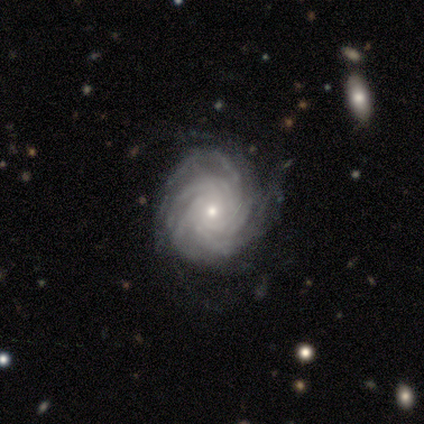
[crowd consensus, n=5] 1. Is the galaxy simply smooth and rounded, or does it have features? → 80% featured or disk, 20% smooth, 0% star or artifact.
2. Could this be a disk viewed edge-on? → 100% no, 0% yes.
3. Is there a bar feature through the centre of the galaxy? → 100% no, 0% strong, 0% weak.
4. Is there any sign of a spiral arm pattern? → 100% yes, 0% no.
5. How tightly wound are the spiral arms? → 100% tight, 0% medium, 0% loose.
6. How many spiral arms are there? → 50% more than 4 (tied), 50% can't tell (tied), 0% 1, 0% 2, 0% 3, 0% 4.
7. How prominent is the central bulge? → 50% moderate (tied), 50% small (tied), 0% dominant, 0% large, 0% none.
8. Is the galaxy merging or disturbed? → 60% none, 40% minor disturbance, 0% major disturbance, 0% merger.